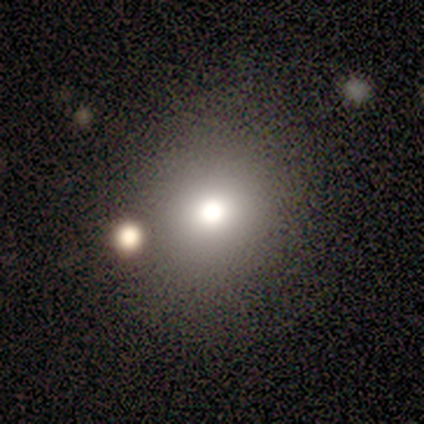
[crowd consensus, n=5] Overall: smooth (80%). How rounded: round (100%). Merging: none (80%).